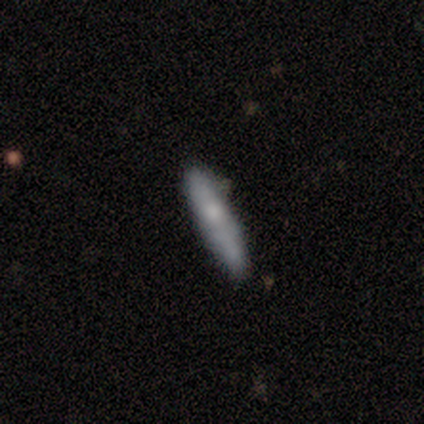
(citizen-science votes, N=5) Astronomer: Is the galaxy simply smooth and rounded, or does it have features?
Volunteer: smooth — 60% (runner-up: featured or disk, 40%).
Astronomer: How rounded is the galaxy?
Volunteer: cigar-shaped — 100%.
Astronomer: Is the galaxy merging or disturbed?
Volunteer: none — 40%, tied with minor disturbance at 40%.